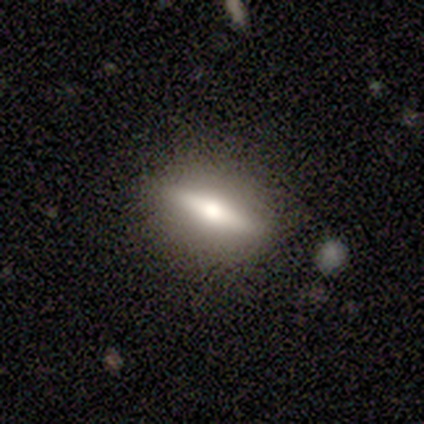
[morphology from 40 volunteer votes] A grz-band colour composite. It shows a featured or disk galaxy (65%) viewed edge-on (81%) with a rounded central bulge (95%). Merging: none (88%).